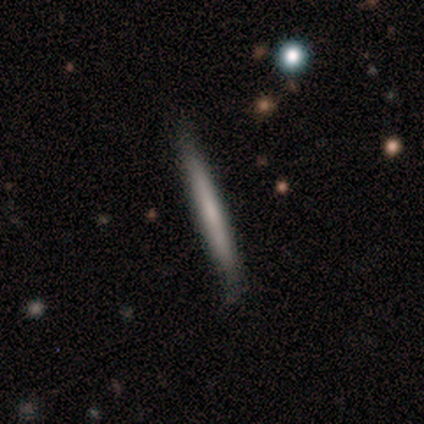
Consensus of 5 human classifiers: Smooth or featured? 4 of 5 (80%) said smooth. How rounded? 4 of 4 (100%) said cigar-shaped. Merging? 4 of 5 (80%) said none.